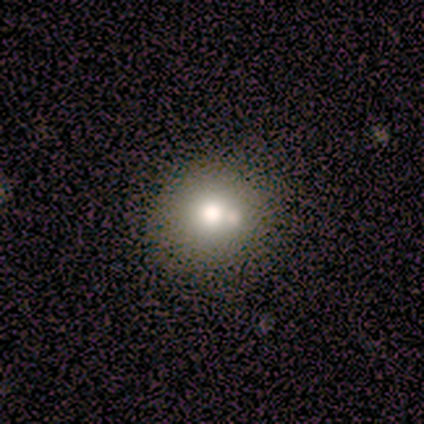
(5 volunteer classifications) Smooth or featured: smooth — 80% (featured or disk — 20%)
How rounded: round — 75% (in between — 25%)
Merging: none — 60% (minor disturbance — 20%)